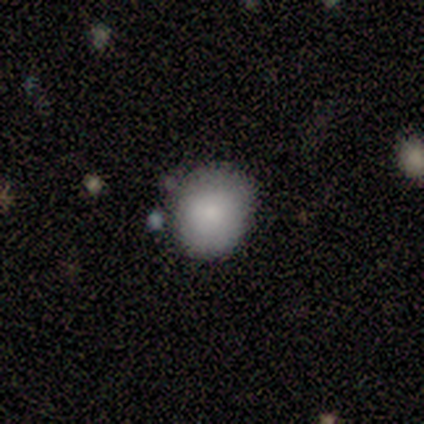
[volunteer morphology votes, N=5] Q: Smooth or featured?
A: smooth (100%)
Q: How rounded?
A: round (60%); runner-up: in between (40%)
Q: Merging?
A: none (100%)